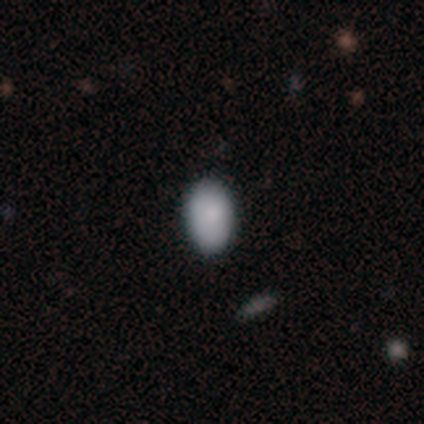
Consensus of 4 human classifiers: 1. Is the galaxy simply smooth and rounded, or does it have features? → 50% smooth, 25% featured or disk, 25% star or artifact.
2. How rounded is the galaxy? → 100% in between, 0% round, 0% cigar-shaped.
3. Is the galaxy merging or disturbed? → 67% none, 33% minor disturbance, 0% major disturbance, 0% merger.